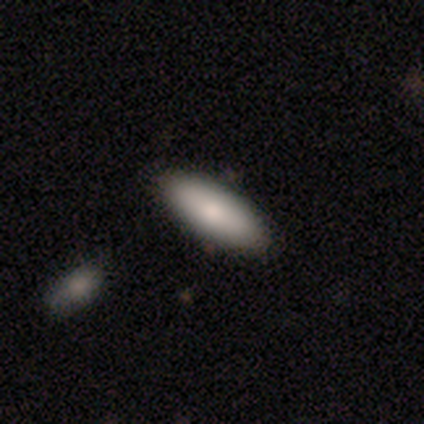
This is likely a smooth galaxy (60%). How rounded: likely in between (67%). Merging: clearly none (100%).